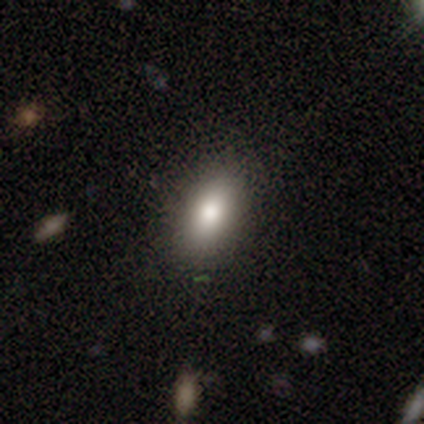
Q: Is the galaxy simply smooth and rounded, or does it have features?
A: smooth — 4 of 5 (80%).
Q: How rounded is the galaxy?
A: in between — 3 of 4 (75%).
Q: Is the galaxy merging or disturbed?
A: none — 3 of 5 (60%).